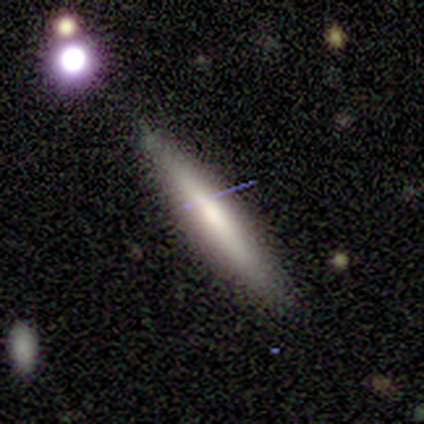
Morphology: type=smooth (64%); roundness=cigar-shaped (100%); merging=none (79%).